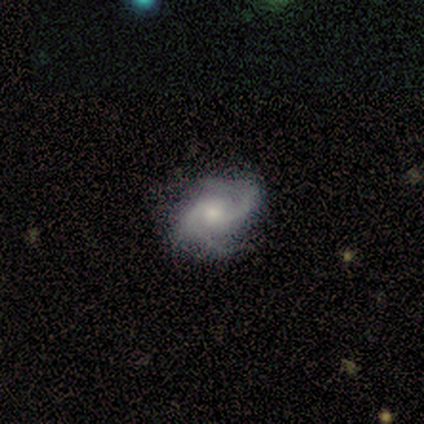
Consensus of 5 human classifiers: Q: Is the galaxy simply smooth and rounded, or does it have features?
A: featured or disk — 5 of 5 (100%).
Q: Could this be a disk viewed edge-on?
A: no — 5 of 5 (100%).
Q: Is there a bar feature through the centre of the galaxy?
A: no — 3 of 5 (60%).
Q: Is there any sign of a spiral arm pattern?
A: yes — 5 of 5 (100%).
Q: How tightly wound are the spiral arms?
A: medium — 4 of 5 (80%).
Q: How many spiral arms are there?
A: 2 — 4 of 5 (80%).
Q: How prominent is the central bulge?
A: small — 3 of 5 (60%).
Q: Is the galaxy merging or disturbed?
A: none — 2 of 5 (40%, tied with major disturbance).